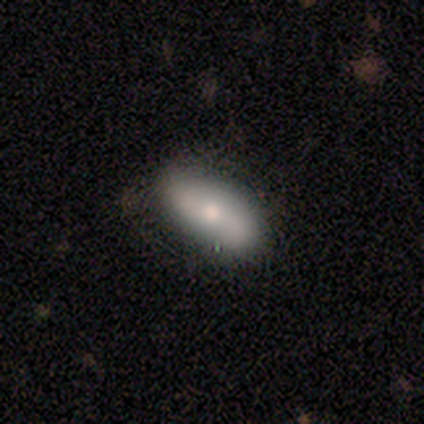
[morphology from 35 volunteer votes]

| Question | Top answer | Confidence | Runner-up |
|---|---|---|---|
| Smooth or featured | smooth | 60% | featured or disk (31%) |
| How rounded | in between | 86% | cigar-shaped (14%) |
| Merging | none | 81% | minor disturbance (12%) |